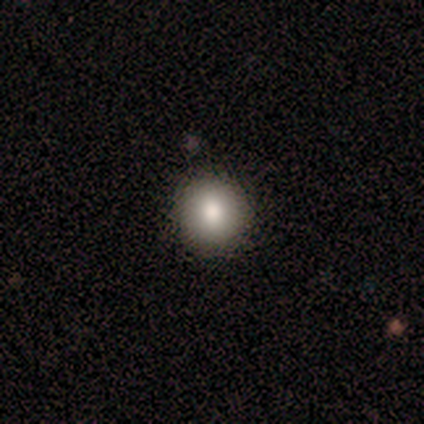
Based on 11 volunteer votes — Q: Smooth or featured?
A: smooth (100%)
Q: How rounded?
A: round (100%)
Q: Merging?
A: none (100%)